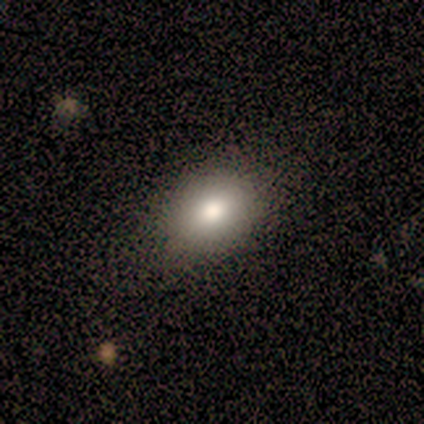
Smooth or featured: smooth — 100%
How rounded: in between — 80% (round — 20%)
Merging: none — 60% (minor disturbance — 40%)